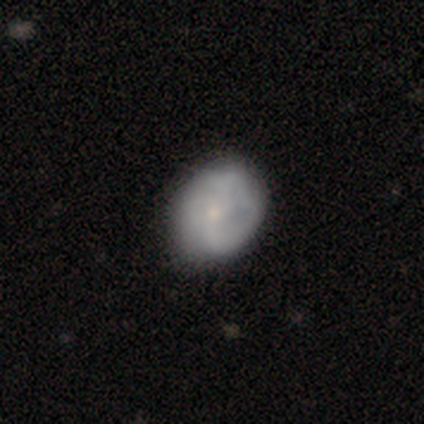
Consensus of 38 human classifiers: smooth 53%, featured or disk 47%, star or artifact 0%. Down the decision tree: how rounded — round (50%, tied with in between); merging — none (37%).